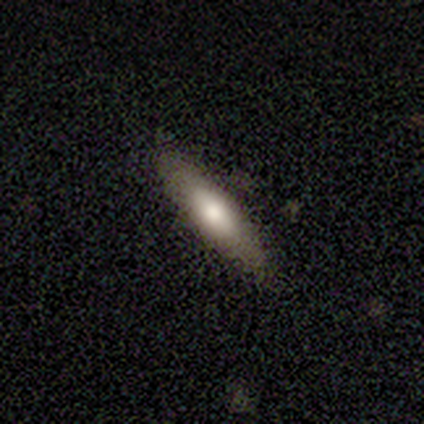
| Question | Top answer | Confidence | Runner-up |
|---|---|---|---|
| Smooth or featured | smooth | 63% | featured or disk (32%) |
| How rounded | cigar-shaped | 71% | in between (29%) |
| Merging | none | 81% | minor disturbance (14%) |